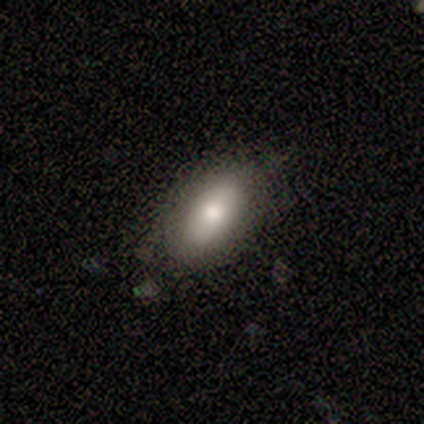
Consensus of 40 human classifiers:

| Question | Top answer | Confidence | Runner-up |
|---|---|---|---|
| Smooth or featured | smooth | 78% | featured or disk (20%) |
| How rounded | in between | 100% | — |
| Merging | none | 69% | minor disturbance (21%) |